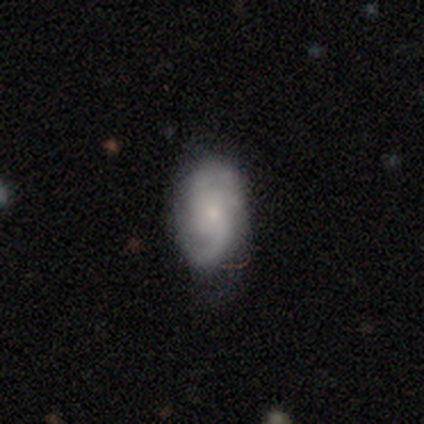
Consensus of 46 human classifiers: Smooth or featured?
  - featured or disk: 61% *
  - smooth: 28%
  - star or artifact: 11%
Edge-on disk?
  - no: 100% *
  - yes: 0%
Bar?
  - no: 75% *
  - weak: 25%
  - strong: 0%
Spiral arms?
  - yes: 93% *
  - no: 7%
Spiral winding?
  - loose: 50% *
  - medium: 42%
  - tight: 8%
Spiral arm count?
  - 2: 62% *
  - 3: 15%
  - can't tell: 12%
  - 1: 8%
  - 4: 4%
  - more than 4: 0%
Bulge size?
  - small: 75% *
  - moderate: 14%
  - none: 11%
  - dominant: 0%
  - large: 0%
Merging?
  - none: 73% *
  - minor disturbance: 22%
  - major disturbance: 5%
  - merger: 0%